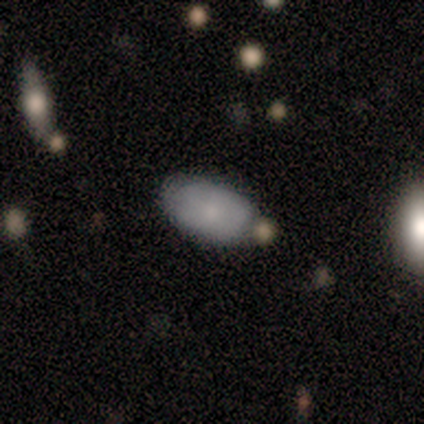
This is likely a smooth galaxy (60%). How rounded: clearly in between (100%). Merging: likely none (75%).